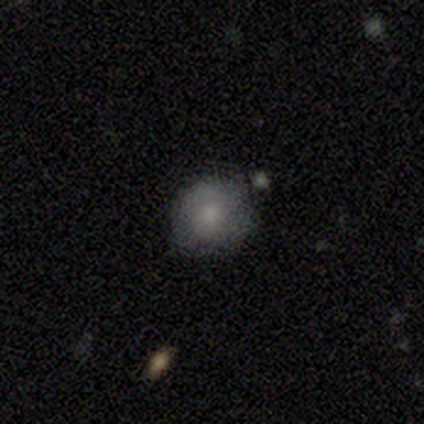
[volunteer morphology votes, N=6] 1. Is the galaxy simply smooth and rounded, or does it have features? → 50% smooth, 33% featured or disk, 17% star or artifact.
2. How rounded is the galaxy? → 100% round, 0% in between, 0% cigar-shaped.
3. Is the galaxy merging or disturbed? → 60% none, 40% minor disturbance, 0% major disturbance, 0% merger.